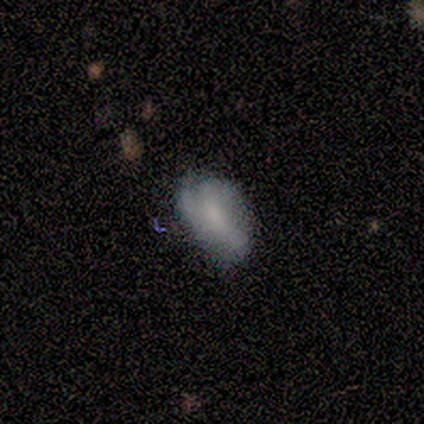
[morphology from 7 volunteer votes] Smooth or featured?
  - smooth: 71% *
  - featured or disk: 29%
  - star or artifact: 0%
How rounded?
  - in between: 100% *
  - round: 0%
  - cigar-shaped: 0%
Merging?
  - minor disturbance: 86% *
  - major disturbance: 14%
  - none: 0%
  - merger: 0%